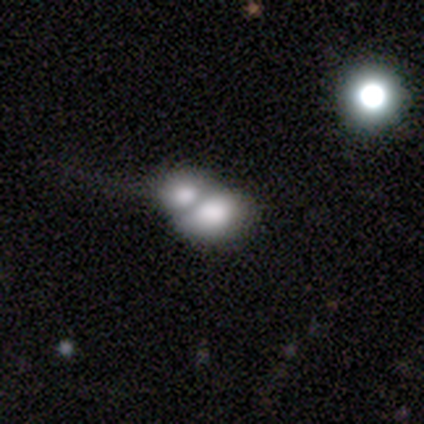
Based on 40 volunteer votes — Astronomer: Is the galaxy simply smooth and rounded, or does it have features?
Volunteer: smooth — 70%.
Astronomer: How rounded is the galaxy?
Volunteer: in between — 61% (runner-up: round, 39%).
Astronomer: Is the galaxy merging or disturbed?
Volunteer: merger — 72%.